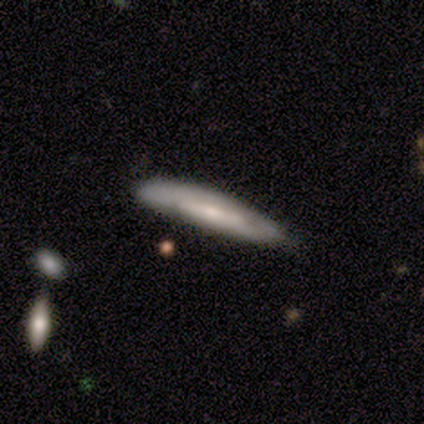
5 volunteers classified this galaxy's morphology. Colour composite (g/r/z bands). It shows a smooth galaxy with no disk features (40%, tied with featured or disk) that is cigar-shaped (100%). Merging: none (75%).